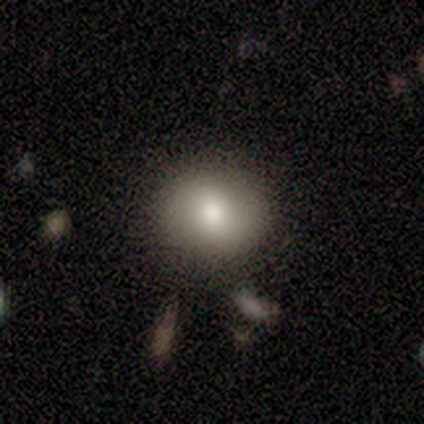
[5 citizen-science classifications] A smooth galaxy with no disk features (100%) that is round (100%).

Vote fractions:
- Smooth or featured? smooth: 100% / featured or disk: 0% / star or artifact: 0%
- How rounded? round: 100% / in between: 0% / cigar-shaped: 0%
- Merging? none: 100% / minor disturbance: 0% / major disturbance: 0% / merger: 0%